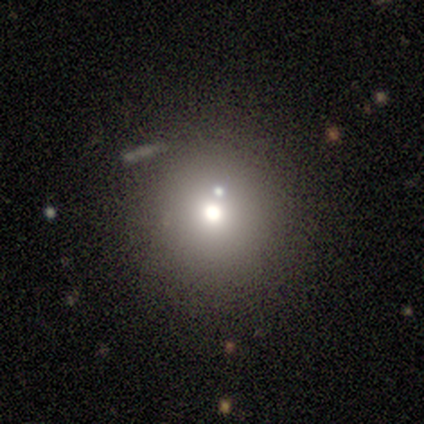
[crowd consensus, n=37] Smooth or featured?
  - smooth: 70% *
  - star or artifact: 16%
  - featured or disk: 14%
How rounded?
  - round: 88% *
  - in between: 12%
  - cigar-shaped: 0%
Merging?
  - none: 74% *
  - merger: 16%
  - minor disturbance: 10%
  - major disturbance: 0%